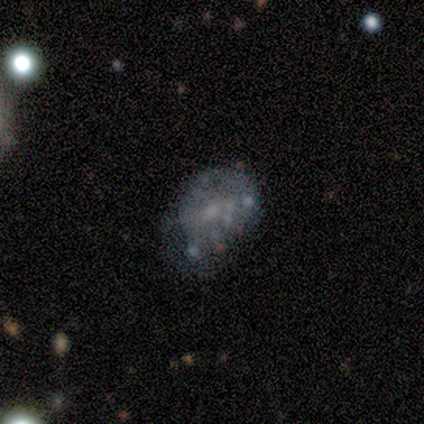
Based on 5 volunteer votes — This appears to be a featured or disk galaxy (100%) with no bar (100%), no spiral arms (100%) and a moderate central bulge (40%, tied with none). Merging: none (40%, tied with minor disturbance).